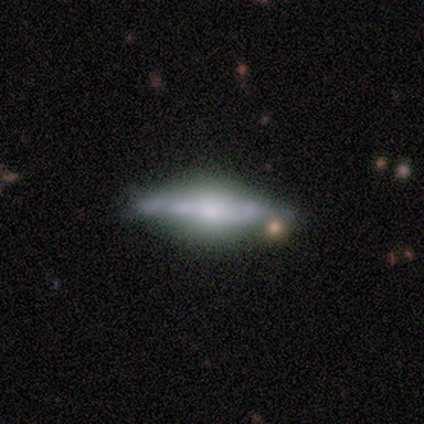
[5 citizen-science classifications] Smooth or featured? 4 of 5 (80%) said featured or disk. Edge-on disk? 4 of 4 (100%) said yes. Edge-on bulge? 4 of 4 (100%) said rounded. Merging? 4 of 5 (80%) said none.